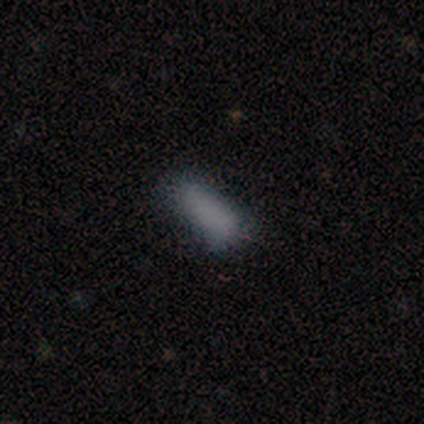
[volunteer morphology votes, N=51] Overall: smooth (82%). How rounded: in between (74%). Merging: none (71%).